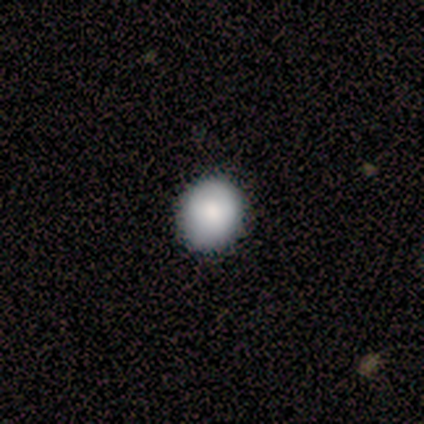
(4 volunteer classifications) A smooth galaxy with no disk features (100%) that is round (75%).

Vote fractions:
- Smooth or featured? smooth: 100% / featured or disk: 0% / star or artifact: 0%
- How rounded? round: 75% / in between: 25% / cigar-shaped: 0%
- Merging? none: 100% / minor disturbance: 0% / major disturbance: 0% / merger: 0%